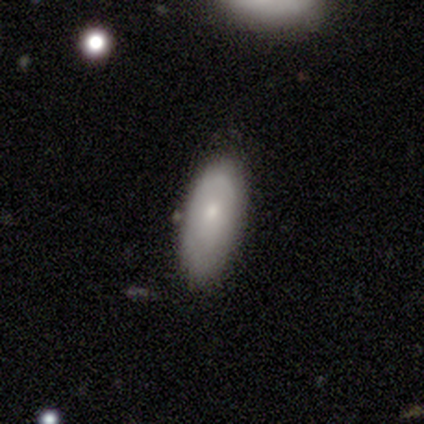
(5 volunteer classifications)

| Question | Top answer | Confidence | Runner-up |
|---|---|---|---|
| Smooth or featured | smooth | 100% | — |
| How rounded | in between | 80% | round (20%) |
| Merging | none | 60% | minor disturbance (40%) |